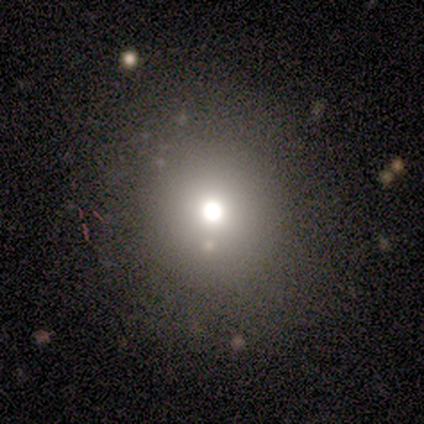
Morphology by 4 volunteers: Volunteers were most divided on "smooth or featured" (2-way tie): smooth: 50%, star or artifact: 50%, featured or disk: 0%; "merging" (2-way tie): none: 50%, major disturbance: 50%, minor disturbance: 0%, merger: 0%. More confident: how rounded — round (100%).